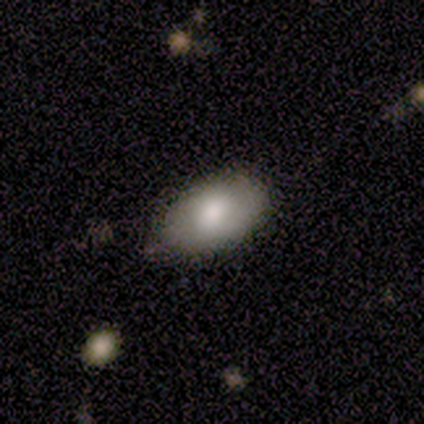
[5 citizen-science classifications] smooth-or-featured: smooth: 80% | star or artifact: 20% | featured or disk: 0%
  how-rounded: in between: 100% | round: 0% | cigar-shaped: 0%
  merging: none: 100% | minor disturbance: 0% | major disturbance: 0% | merger: 0%